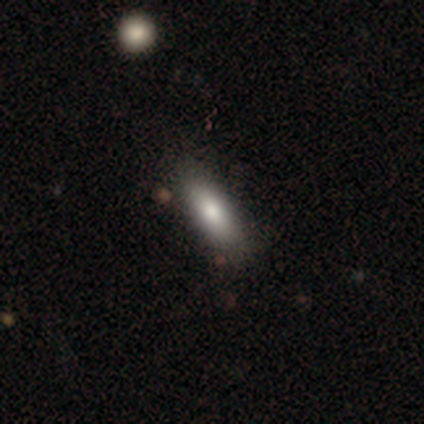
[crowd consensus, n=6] smooth 83%, star or artifact 17%, featured or disk 0%. Down the decision tree: how rounded — in between (60%); merging — none (100%).